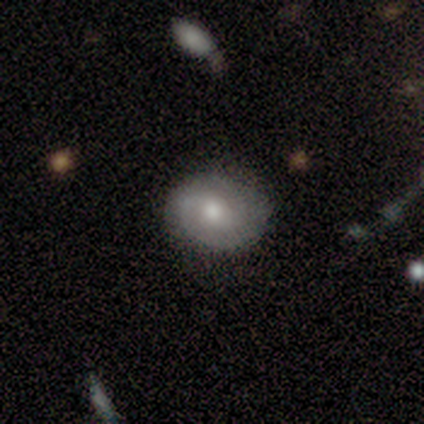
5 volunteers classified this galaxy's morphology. A featured or disk galaxy (60%) with no bar (100%), 2 (67%) loose (67%) spiral arms (100%) and a moderate central bulge (100%). Merging: none (75%).